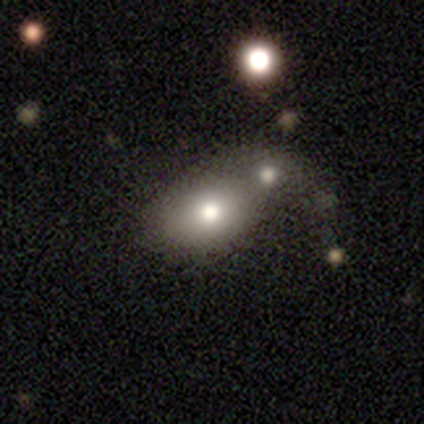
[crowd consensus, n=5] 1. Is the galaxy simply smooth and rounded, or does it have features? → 100% smooth, 0% featured or disk, 0% star or artifact.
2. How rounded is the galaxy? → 60% in between, 40% round, 0% cigar-shaped.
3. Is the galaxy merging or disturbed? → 60% merger, 40% none, 0% minor disturbance, 0% major disturbance.